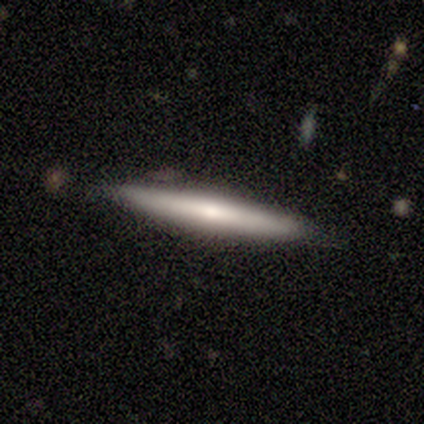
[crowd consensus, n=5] Smooth or featured? 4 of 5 (80%) said featured or disk. Edge-on disk? 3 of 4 (75%) said yes. Edge-on bulge? 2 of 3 (67%) said rounded. Merging? 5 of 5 (100%) said none.